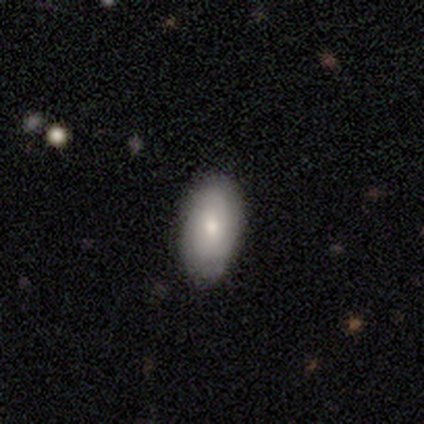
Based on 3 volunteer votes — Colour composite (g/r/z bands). It shows a smooth galaxy with no disk features (67%) that is in between round and cigar-shaped (100%). Merging: none (67%).